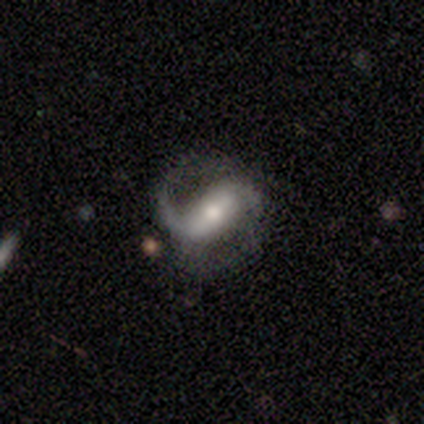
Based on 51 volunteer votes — Overall: featured or disk (84%). Edge-on disk: no (100%). Bar: strong (72%). Spiral arms: yes (93%). Spiral arm count: 2 (80%). Spiral winding: medium (45%, tied with loose). Bulge size: moderate (70%). Merging: none (51%; major disturbance 29%).